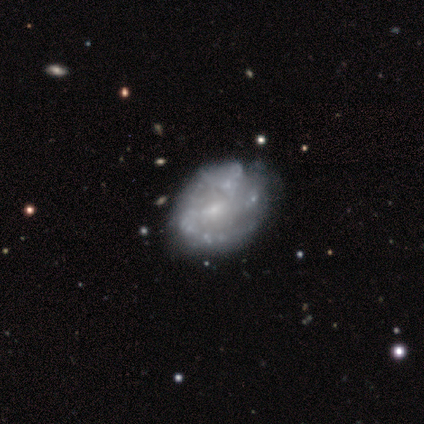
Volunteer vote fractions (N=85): Smooth or featured? featured or disk (76%)
Edge-on disk? no (98%)
Bar? no (55%)
Spiral arms? yes (64%)
Spiral winding? medium (49%)
Spiral arm count? can't tell (44%)
Bulge size? small (78%)
Merging? none (53%)